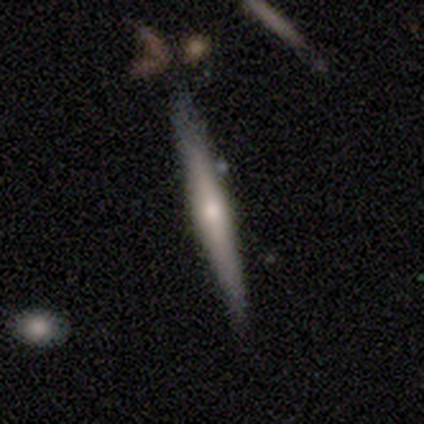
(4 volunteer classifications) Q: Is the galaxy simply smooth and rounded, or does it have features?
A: featured or disk — 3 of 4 (75%).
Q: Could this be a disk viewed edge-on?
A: yes — 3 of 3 (100%).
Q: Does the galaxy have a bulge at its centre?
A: rounded — 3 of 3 (100%).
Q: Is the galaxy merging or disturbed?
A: none — 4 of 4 (100%).